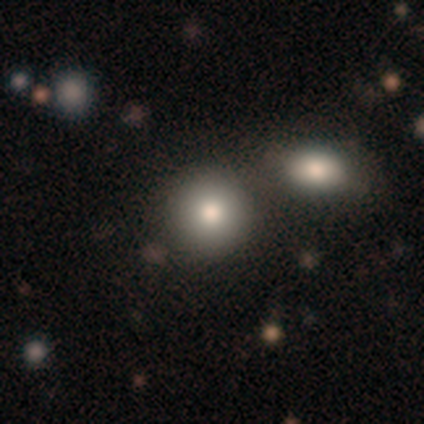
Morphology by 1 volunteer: type=smooth (100%); roundness=round (100%); merging=none (100%).